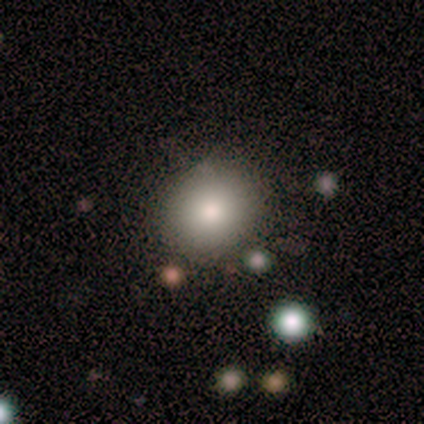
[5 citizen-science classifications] Overall: smooth (60%; featured or disk 20%). How rounded: round (67%; in between 33%). Merging: none (100%).